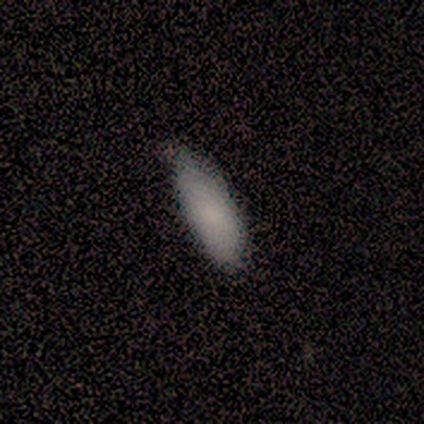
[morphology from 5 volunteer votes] This is likely a smooth galaxy (60%). How rounded: likely in between (67%). Merging: clearly minor disturbance (100%).